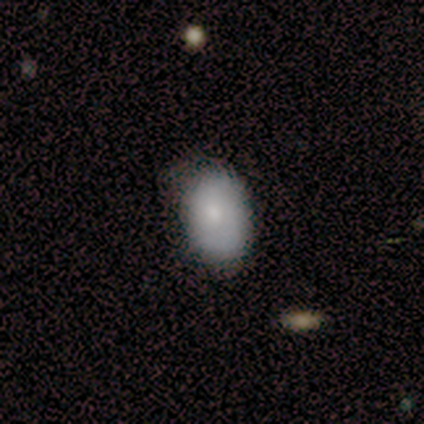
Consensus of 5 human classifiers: smooth_or_featured: smooth (p=0.80) [alt: featured or disk p=0.20]
how_rounded: in between (p=0.75) [alt: round p=0.25]
merging: none (p=1.00)